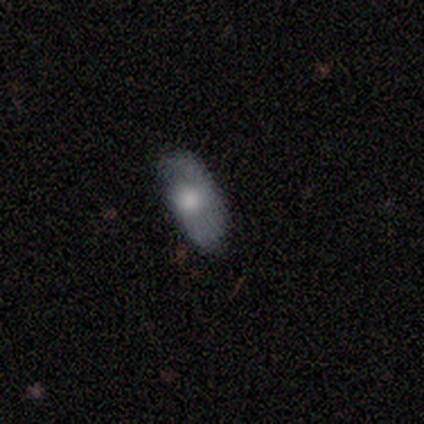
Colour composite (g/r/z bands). It shows a smooth galaxy with no disk features (50%) that is in between round and cigar-shaped (50%, tied with cigar-shaped). Merging: none (100%).